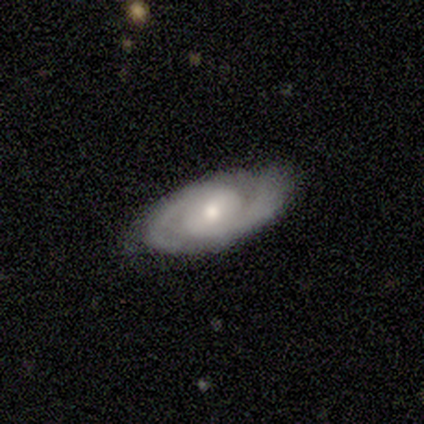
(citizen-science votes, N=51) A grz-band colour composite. It shows a featured or disk galaxy (88%) with no bar (50%), 2 (95%) tight (60%) spiral arms (95%) and a moderate central bulge (55%). Merging: none (77%).